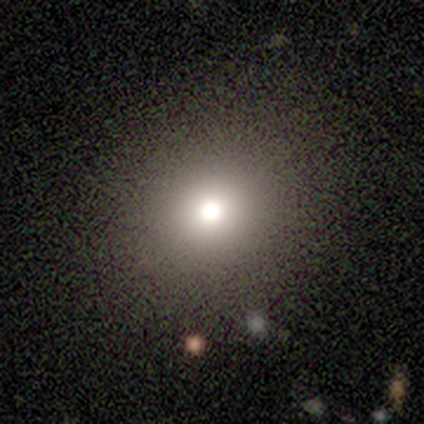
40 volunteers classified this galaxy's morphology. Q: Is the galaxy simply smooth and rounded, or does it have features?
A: smooth — 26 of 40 (65%).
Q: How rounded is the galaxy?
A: round — 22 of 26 (85%).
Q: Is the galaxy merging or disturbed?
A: none — 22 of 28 (79%).